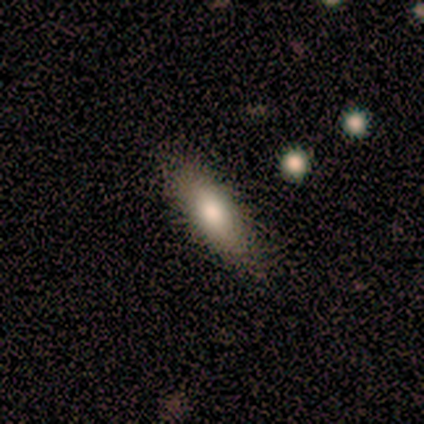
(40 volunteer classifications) Q: Smooth or featured?
A: smooth (78%); runner-up: featured or disk (15%)
Q: How rounded?
A: cigar-shaped (65%); runner-up: in between (35%)
Q: Merging?
A: none (78%); runner-up: minor disturbance (22%)